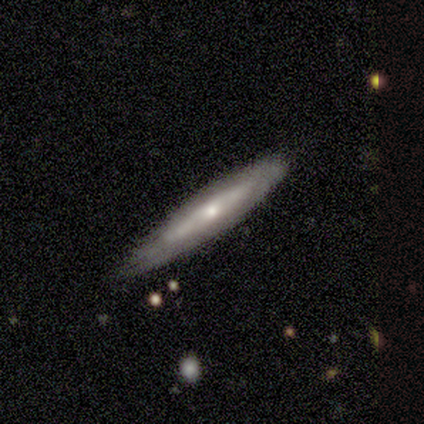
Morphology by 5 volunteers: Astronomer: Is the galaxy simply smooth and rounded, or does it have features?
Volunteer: featured or disk — 60% (runner-up: smooth, 40%).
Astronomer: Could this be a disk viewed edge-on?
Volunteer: yes — 100%.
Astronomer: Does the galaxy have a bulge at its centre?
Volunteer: none — 67%.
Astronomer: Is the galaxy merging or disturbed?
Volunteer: none — 60% (runner-up: minor disturbance, 40%).